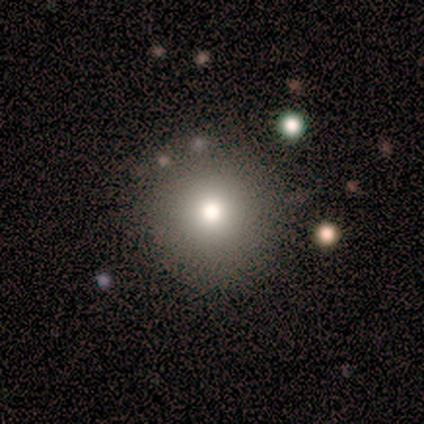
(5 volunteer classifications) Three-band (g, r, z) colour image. It shows a smooth galaxy with no disk features (40%, tied with star or artifact) that is round (100%). Merging: none (67%).